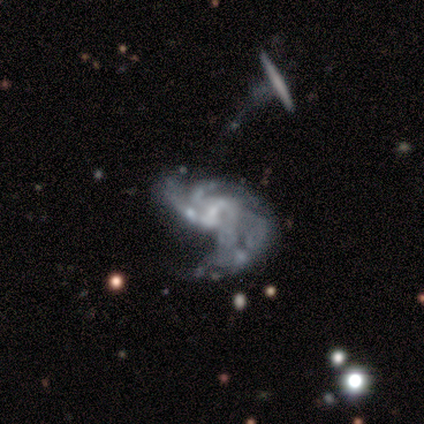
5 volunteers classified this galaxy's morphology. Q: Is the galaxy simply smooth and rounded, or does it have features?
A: featured or disk — 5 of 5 (100%).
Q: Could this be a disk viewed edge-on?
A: no — 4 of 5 (80%).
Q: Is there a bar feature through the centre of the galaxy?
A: weak — 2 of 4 (50%, tied with no).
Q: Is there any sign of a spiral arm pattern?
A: yes — 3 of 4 (75%).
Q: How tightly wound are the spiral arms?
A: medium — 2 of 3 (67%).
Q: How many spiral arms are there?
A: can't tell — 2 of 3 (67%).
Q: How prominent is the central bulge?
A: small — 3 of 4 (75%).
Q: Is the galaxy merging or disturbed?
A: major disturbance — 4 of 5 (80%).